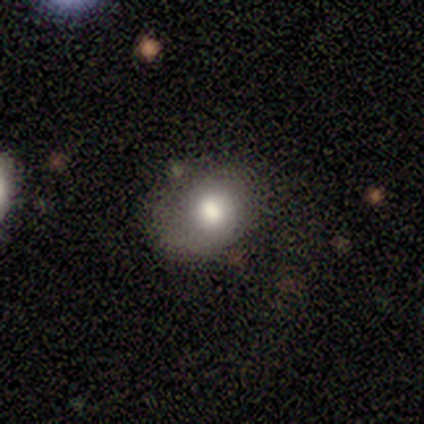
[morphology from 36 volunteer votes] Smooth or featured: smooth — 64% (featured or disk — 19%)
How rounded: round — 57% (in between — 39%)
Merging: none — 50% (minor disturbance — 33%)